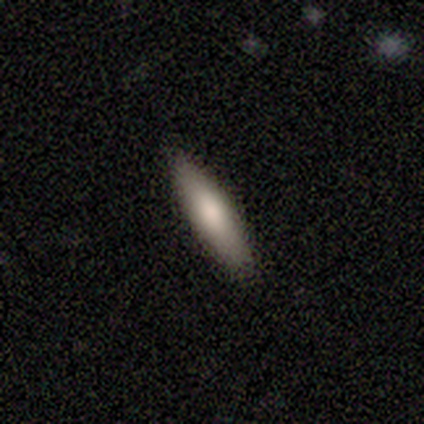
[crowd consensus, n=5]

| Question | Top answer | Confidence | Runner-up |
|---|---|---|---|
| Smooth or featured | smooth | 100% | — |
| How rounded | cigar-shaped | 80% | in between (20%) |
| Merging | none | 100% | — |